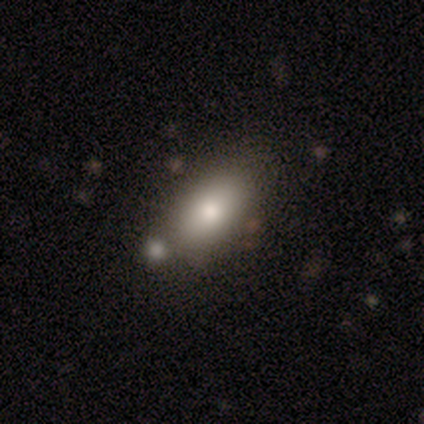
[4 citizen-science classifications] This is clearly a smooth galaxy (100%). How rounded: clearly in between (100%). Merging: likely none (75%).